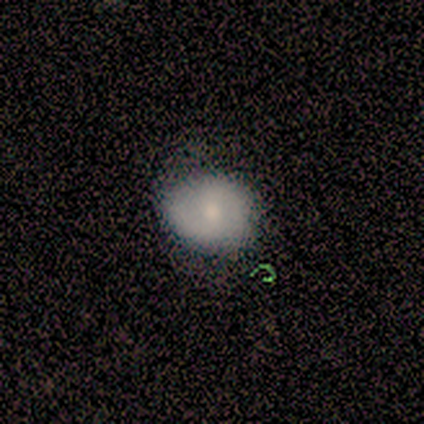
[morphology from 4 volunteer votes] Smooth or featured? 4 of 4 (100%) said smooth. How rounded? 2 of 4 (50%, tied with in between) said round. Merging? 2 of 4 (50%) said none.